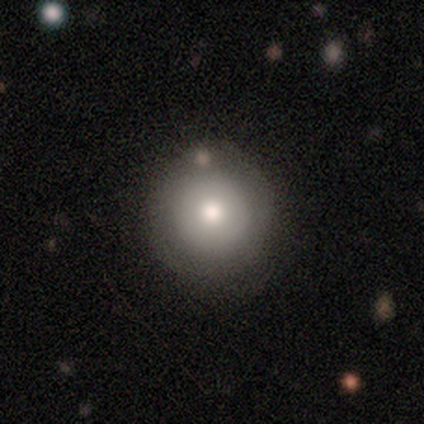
Overall: smooth (75%). How rounded: round (100%). Merging: none (75%).